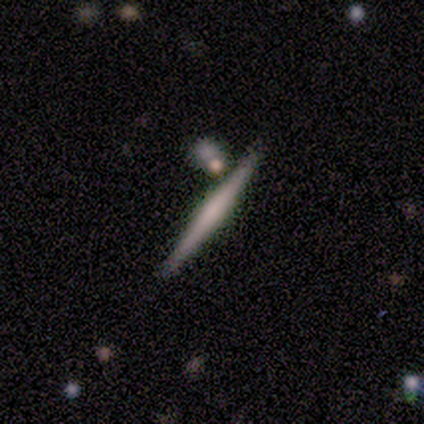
Smooth or featured?
  - smooth: 80% *
  - featured or disk: 20%
  - star or artifact: 0%
How rounded?
  - cigar-shaped: 100% *
  - round: 0%
  - in between: 0%
Merging?
  - none: 40% *
  - minor disturbance: 20%
  - major disturbance: 20%
  - merger: 20%